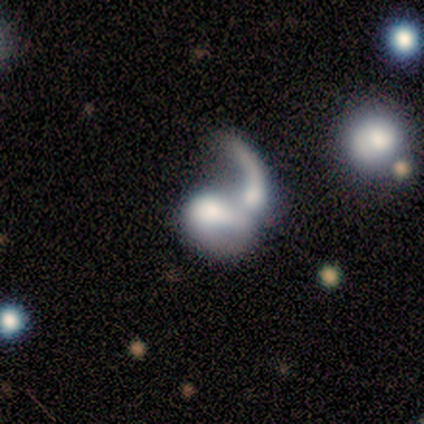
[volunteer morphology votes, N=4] smooth-or-featured: smooth: 50% (tied) | featured or disk: 50% (tied) | star or artifact: 0%
  how-rounded: round: 50% (tied) | in between: 50% (tied) | cigar-shaped: 0%
  merging: major disturbance: 50% (tied) | merger: 50% (tied) | none: 0% | minor disturbance: 0%